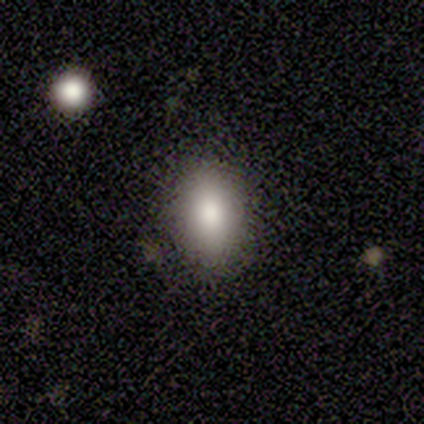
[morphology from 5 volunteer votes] Smooth or featured: smooth — 100%
How rounded: in between — 80% (round — 20%)
Merging: none — 80% (minor disturbance — 20%)